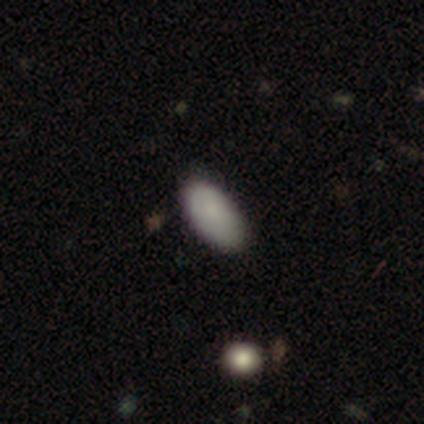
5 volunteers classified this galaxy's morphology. Smooth or featured: smooth — 80% (featured or disk — 20%)
How rounded: in between — 100%
Merging: none — 60% (minor disturbance — 40%)